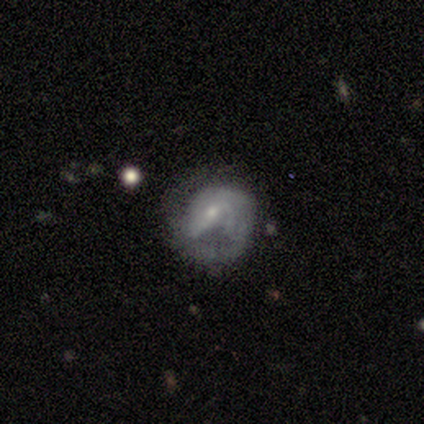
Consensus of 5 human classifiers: Smooth or featured: featured or disk — 80% (smooth — 20%)
Edge-on disk: no — 100%
Bar: weak — 75% (strong — 25%)
Spiral arms: yes — 100%
Spiral winding: medium — 50% (tied with loose — 50%)
Spiral arm count: can't tell — 75% (1 — 25%)
Bulge size: small — 100%
Merging: none — 60% (minor disturbance — 20%)